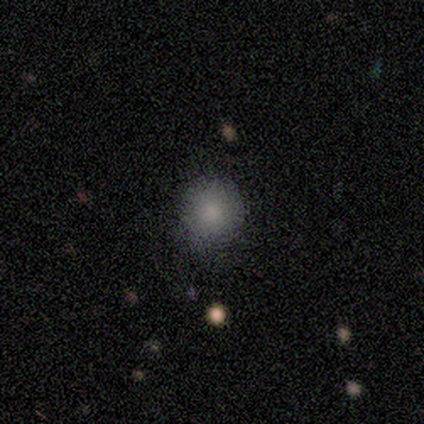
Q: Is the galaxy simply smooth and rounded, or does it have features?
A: smooth — 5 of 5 (100%).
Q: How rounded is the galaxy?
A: round — 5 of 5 (100%).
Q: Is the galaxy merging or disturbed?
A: none — 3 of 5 (60%).